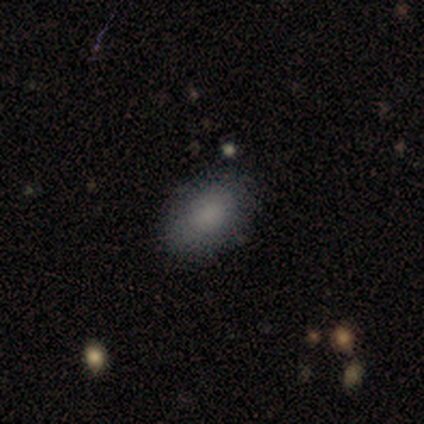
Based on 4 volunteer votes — Smooth or featured: smooth — 100%
How rounded: in between — 100%
Merging: none — 100%